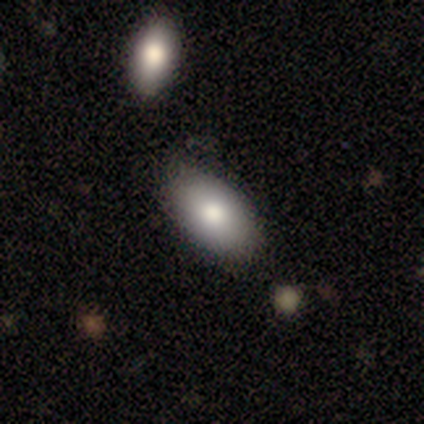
Smooth or featured? 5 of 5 (100%) said smooth. How rounded? 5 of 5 (100%) said in between. Merging? 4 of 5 (80%) said none.